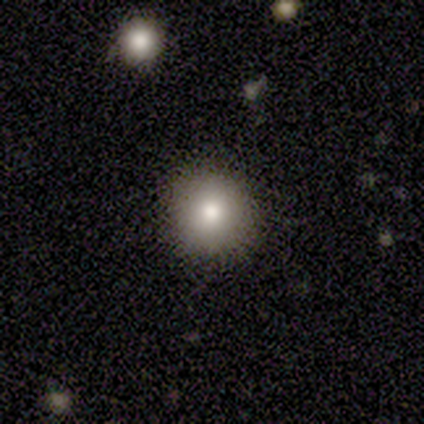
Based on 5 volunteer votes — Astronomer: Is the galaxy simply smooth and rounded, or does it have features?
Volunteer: smooth — 100%.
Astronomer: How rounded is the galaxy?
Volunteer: round — 100%.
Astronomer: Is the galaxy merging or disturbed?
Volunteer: none — 100%.